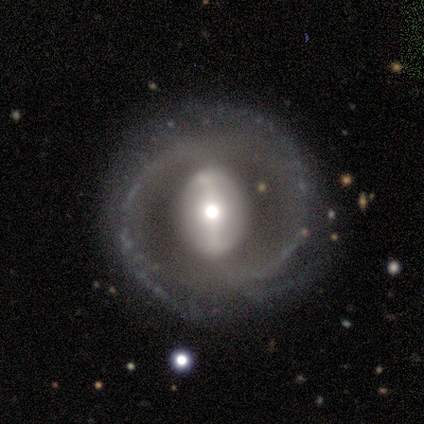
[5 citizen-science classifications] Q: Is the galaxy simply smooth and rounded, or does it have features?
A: featured or disk — 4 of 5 (80%).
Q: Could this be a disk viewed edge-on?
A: no — 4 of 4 (100%).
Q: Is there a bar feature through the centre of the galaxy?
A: strong — 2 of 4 (50%).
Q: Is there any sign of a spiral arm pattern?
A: yes — 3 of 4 (75%).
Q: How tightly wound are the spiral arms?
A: medium — 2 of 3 (67%).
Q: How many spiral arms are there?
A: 2 — 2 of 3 (67%).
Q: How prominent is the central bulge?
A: moderate — 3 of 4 (75%).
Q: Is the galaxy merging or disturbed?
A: none — 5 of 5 (100%).